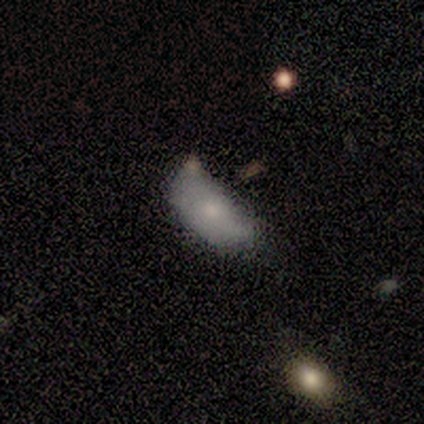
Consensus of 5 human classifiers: Q: Smooth or featured?
A: smooth (60%); runner-up: featured or disk (40%)
Q: How rounded?
A: in between (67%); runner-up: cigar-shaped (33%)
Q: Merging?
A: none (40%); tied with: minor disturbance (40%)